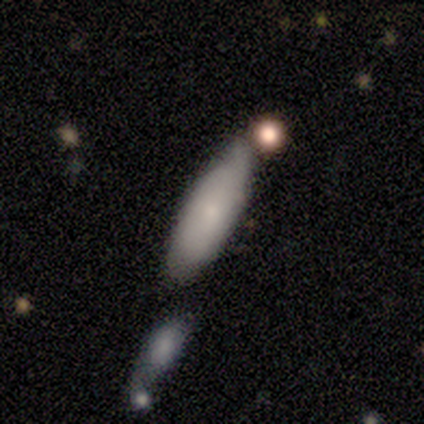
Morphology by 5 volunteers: A smooth galaxy with no disk features (80%) that is in between round and cigar-shaped (75%). Merging: none (60%).